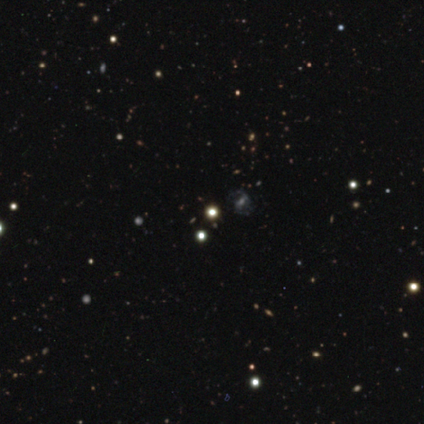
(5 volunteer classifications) smooth-or-featured: smooth: 60% | featured or disk: 20% | star or artifact: 20%
  how-rounded: round: 100% | in between: 0% | cigar-shaped: 0%
  merging: none: 75% | minor disturbance: 25% | major disturbance: 0% | merger: 0%